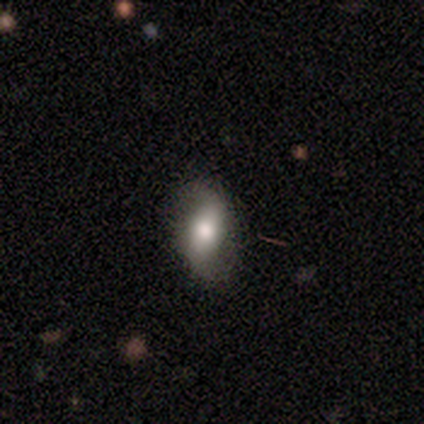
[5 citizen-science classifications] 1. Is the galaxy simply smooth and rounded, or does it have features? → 80% smooth, 20% featured or disk, 0% star or artifact.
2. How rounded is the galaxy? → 100% in between, 0% round, 0% cigar-shaped.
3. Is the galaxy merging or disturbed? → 80% none, 20% minor disturbance, 0% major disturbance, 0% merger.